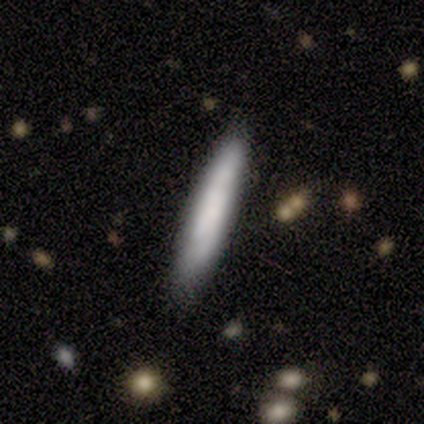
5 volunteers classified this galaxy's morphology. smooth_or_featured: smooth (p=0.40) [tied with: featured or disk p=0.40]
how_rounded: cigar-shaped (p=1.00)
merging: none (p=1.00)